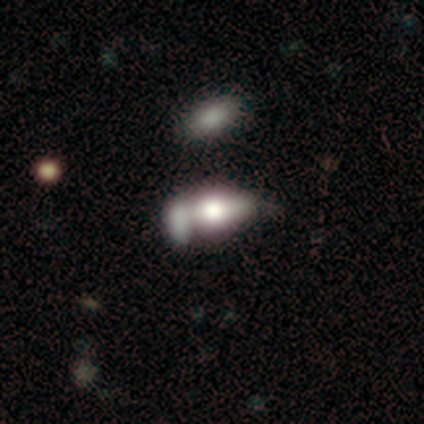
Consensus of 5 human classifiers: Smooth or featured? 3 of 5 (60%) said smooth. How rounded? 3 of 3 (100%) said in between. Merging? 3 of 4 (75%) said merger.